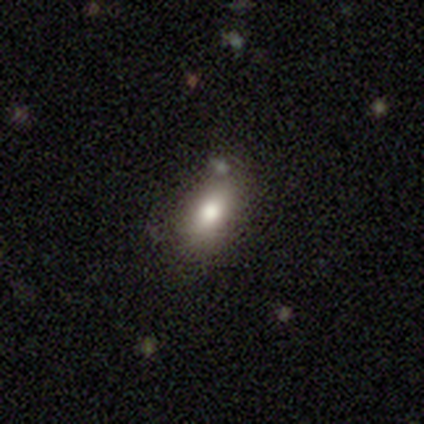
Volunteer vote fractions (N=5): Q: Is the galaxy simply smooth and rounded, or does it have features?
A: smooth — 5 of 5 (100%).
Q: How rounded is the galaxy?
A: in between — 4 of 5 (80%).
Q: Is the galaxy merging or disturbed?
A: none — 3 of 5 (60%).